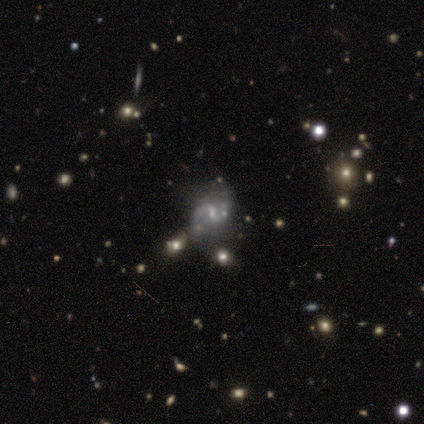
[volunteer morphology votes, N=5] type=featured or disk (100%); edge-on=no (100%); bar=weak (80%); spiral arms=yes (80%); winding=loose (75%); arm count=2 (100%); bulge=small (60%); merging=minor disturbance (60%).